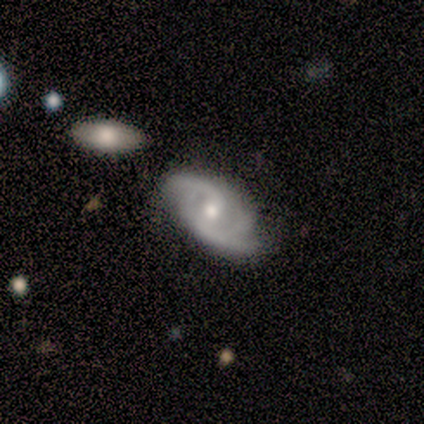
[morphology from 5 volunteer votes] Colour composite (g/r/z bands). It shows a featured or disk galaxy (100%) with a weak bar (100%), 2 (100%) medium (60%) spiral arms (100%) and a small central bulge (60%). Merging: none (40%, tied with minor disturbance).